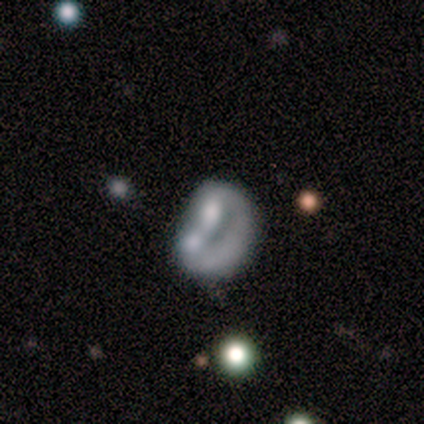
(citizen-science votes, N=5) Morphology: type=featured or disk (60%); edge-on=no (100%); bar=no (100%); spiral arms=no (67%); bulge=none (67%); merging=major disturbance (40%, tied with merger).